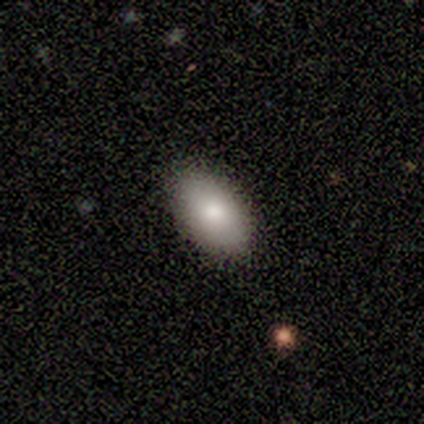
smooth 89%, featured or disk 5%, star or artifact 5%. Down the decision tree: how rounded — in between (91%); merging — none (97%).